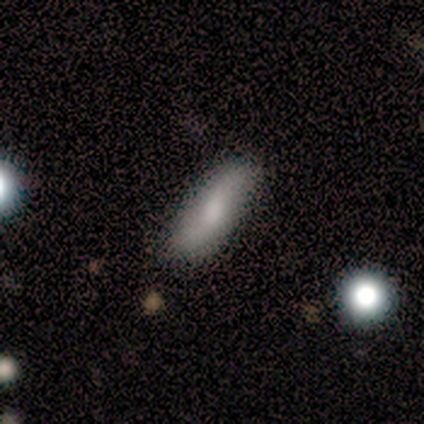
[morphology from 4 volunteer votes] Q: Smooth or featured?
A: smooth (50%); runner-up: featured or disk (25%)
Q: How rounded?
A: cigar-shaped (100%)
Q: Merging?
A: minor disturbance (67%); runner-up: none (33%)